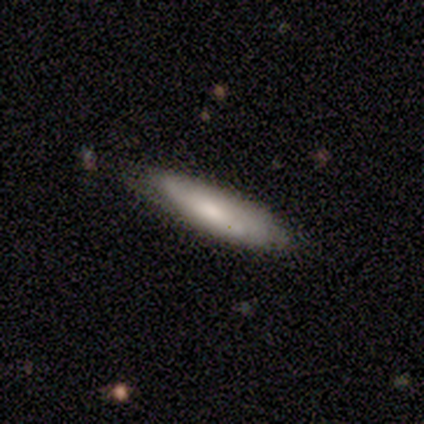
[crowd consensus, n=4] Smooth or featured?
  - smooth: 100% *
  - featured or disk: 0%
  - star or artifact: 0%
How rounded?
  - cigar-shaped: 75% *
  - in between: 25%
  - round: 0%
Merging?
  - none: 100% *
  - minor disturbance: 0%
  - major disturbance: 0%
  - merger: 0%